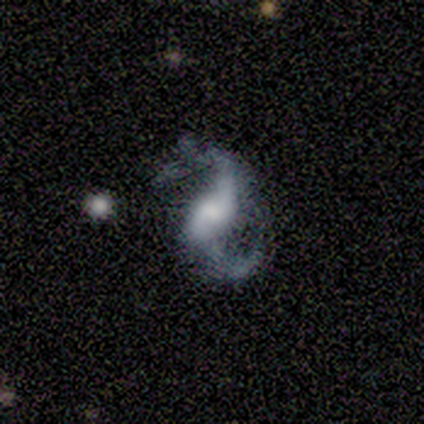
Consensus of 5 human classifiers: Overall: featured or disk (100%). Edge-on disk: no (100%). Bar: weak (40%, tied with no). Spiral arms: yes (100%). Spiral arm count: 2 (100%). Spiral winding: loose (60%; tight 20%). Bulge size: small (60%; moderate 20%). Merging: none (80%).